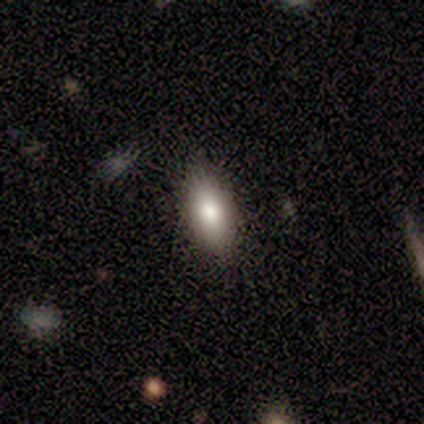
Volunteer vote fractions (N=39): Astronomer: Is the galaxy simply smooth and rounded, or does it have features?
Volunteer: smooth — 85%.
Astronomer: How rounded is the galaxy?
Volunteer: in between — 76%.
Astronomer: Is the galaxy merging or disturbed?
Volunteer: none — 83%.